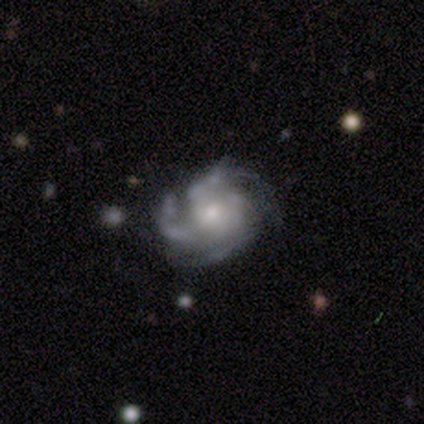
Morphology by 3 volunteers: Overall: featured or disk (67%; star or artifact 33%). Edge-on disk: no (100%). Bar: no (100%). Spiral arms: yes (100%). Spiral arm count: 4 (100%). Spiral winding: tight (100%). Bulge size: moderate (100%). Merging: none (100%).